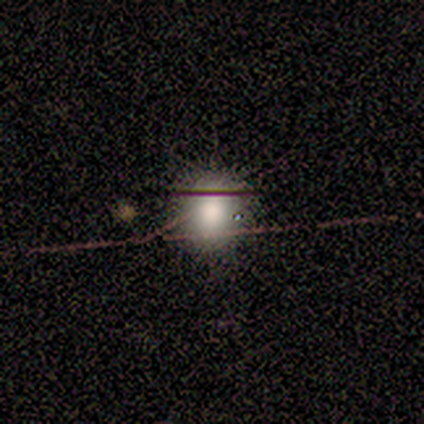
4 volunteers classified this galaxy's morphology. A smooth galaxy with no disk features (50%) that is round (100%).

Vote fractions:
- Smooth or featured? smooth: 50% / featured or disk: 25% / star or artifact: 25%
- How rounded? round: 100% / in between: 0% / cigar-shaped: 0%
- Merging? none: 100% / minor disturbance: 0% / major disturbance: 0% / merger: 0%